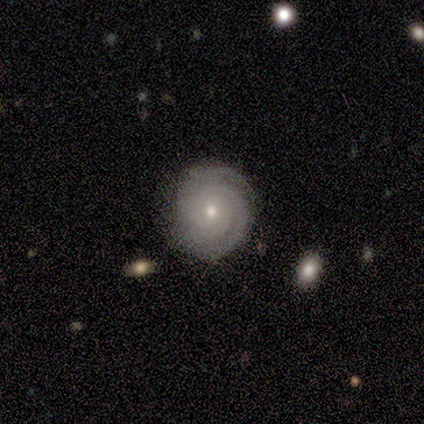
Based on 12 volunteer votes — A featured or disk galaxy (75%) with no bar (100%), 3 (44%) tight (100%) spiral arms (100%) and a small central bulge (56%).

Vote fractions:
- Smooth or featured? featured or disk: 75% / smooth: 25% / star or artifact: 0%
- Edge-on disk? no: 100% / yes: 0%
- Bar? no: 100% / strong: 0% / weak: 0%
- Spiral arms? yes: 100% / no: 0%
- Spiral winding? tight: 100% / medium: 0% / loose: 0%
- Spiral arm count? 3: 44% / can't tell: 33% / 1: 11% / more than 4: 11% / 2: 0% / 4: 0%
- Bulge size? small: 56% / moderate: 44% / dominant: 0% / large: 0% / none: 0%
- Merging? none: 92% / minor disturbance: 8% / major disturbance: 0% / merger: 0%